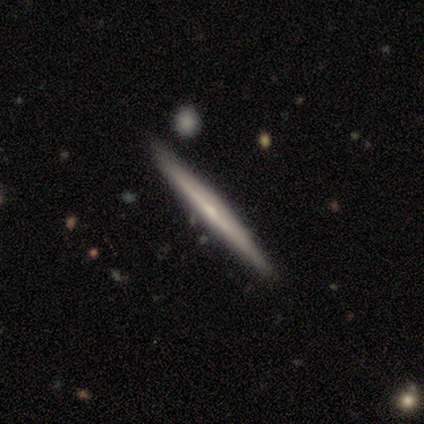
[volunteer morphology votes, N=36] A featured or disk galaxy (78%) viewed edge-on (96%) with no central bulge (63%). Merging: none (86%).